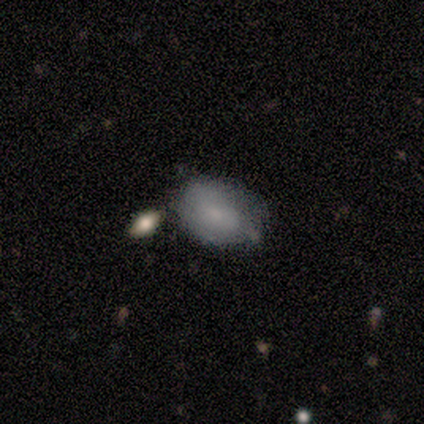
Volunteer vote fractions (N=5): Smooth or featured?
  - smooth: 60% *
  - featured or disk: 40%
  - star or artifact: 0%
How rounded?
  - in between: 67% *
  - round: 33%
  - cigar-shaped: 0%
Merging?
  - none: 40% * (tied)
  - merger: 40% * (tied)
  - minor disturbance: 20%
  - major disturbance: 0%